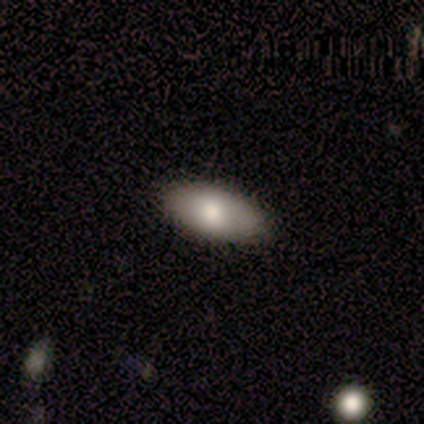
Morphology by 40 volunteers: smooth-or-featured: smooth: 85% | featured or disk: 12% | star or artifact: 2%
  how-rounded: in between: 97% | cigar-shaped: 3% | round: 0%
  merging: none: 95% | minor disturbance: 3% | major disturbance: 3% | merger: 0%